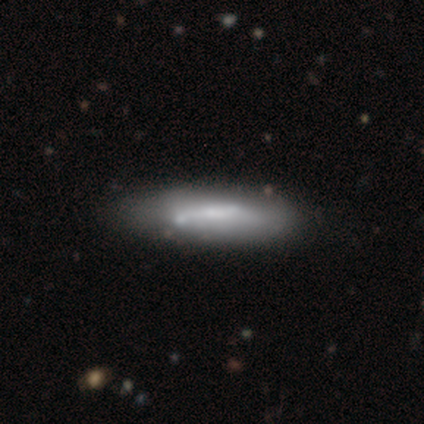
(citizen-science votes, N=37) Smooth or featured? 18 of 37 (49%, tied with featured or disk) said smooth. How rounded? 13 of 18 (72%) said cigar-shaped. Merging? 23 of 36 (64%) said none.